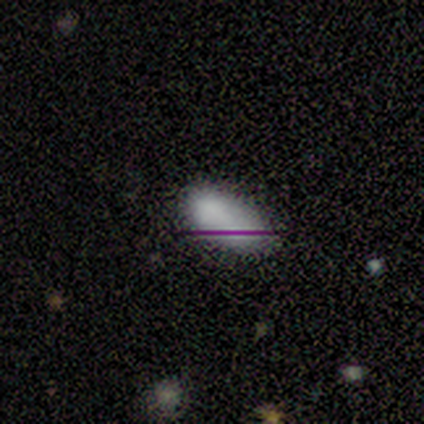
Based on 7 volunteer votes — Smooth or featured: star or artifact — 57% (smooth — 43%)